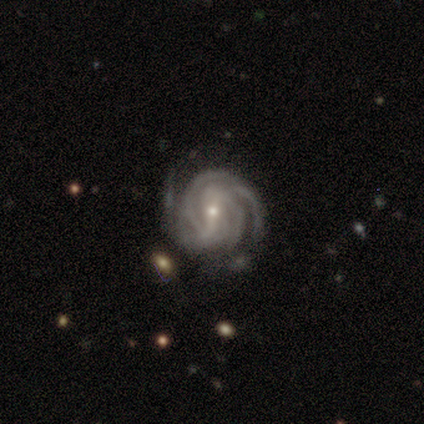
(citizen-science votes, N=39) Smooth or featured: featured or disk — 95% (star or artifact — 5%)
Edge-on disk: no — 97% (yes — 3%)
Bar: strong — 44% (tied with weak — 44%)
Spiral arms: yes — 100%
Spiral winding: tight — 75% (medium — 25%)
Spiral arm count: 3 — 31% (4 — 25%)
Bulge size: small — 67% (moderate — 33%)
Merging: none — 70% (minor disturbance — 22%)